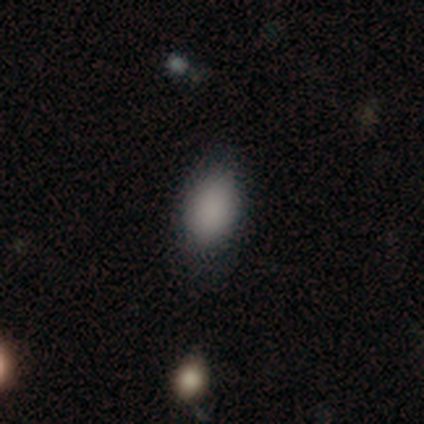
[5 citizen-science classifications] smooth_or_featured: smooth (p=1.00)
how_rounded: in between (p=1.00)
merging: none (p=1.00)